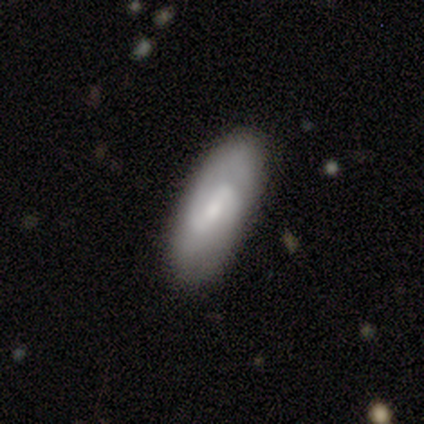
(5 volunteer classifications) smooth-or-featured: smooth: 60% | featured or disk: 40% | star or artifact: 0%
  how-rounded: in between: 100% | round: 0% | cigar-shaped: 0%
  merging: none: 80% | minor disturbance: 20% | major disturbance: 0% | merger: 0%